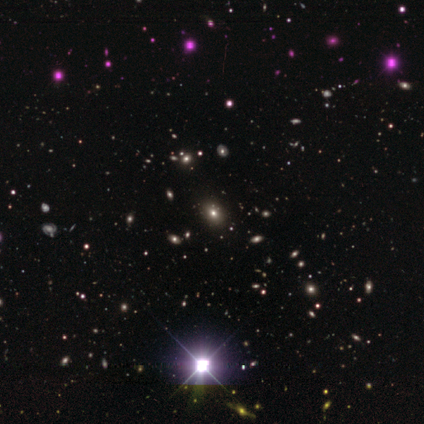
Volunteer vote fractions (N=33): smooth-or-featured: star or artifact: 61% | smooth: 36% | featured or disk: 3%